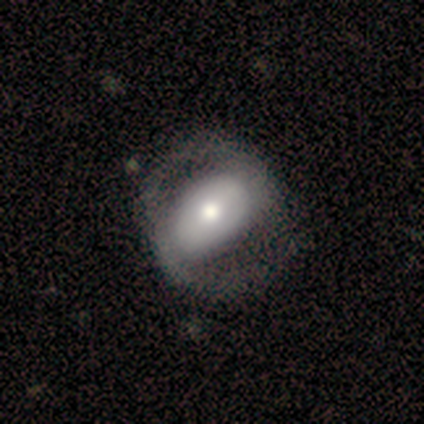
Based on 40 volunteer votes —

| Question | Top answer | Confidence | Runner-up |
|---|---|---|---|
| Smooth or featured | featured or disk | 62% | smooth (28%) |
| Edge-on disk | no | 96% | yes (4%) |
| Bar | no | 46% | strong (29%) |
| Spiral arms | yes | 71% | no (29%) |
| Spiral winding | medium | 65% | loose (29%) |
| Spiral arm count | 2 | 94% | can't tell (6%) |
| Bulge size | moderate | 67% | large (21%) |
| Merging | none | 42% | major disturbance (17%) |